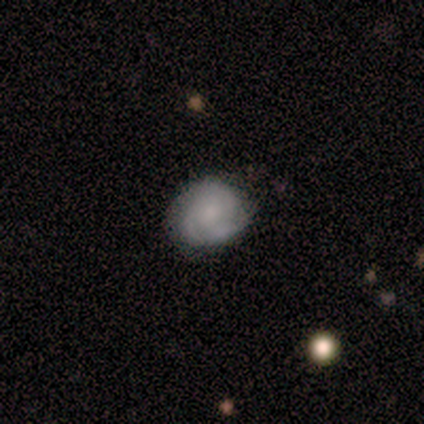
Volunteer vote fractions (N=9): This appears to be a featured or disk galaxy (67%) with no bar (83%), 2 (67%) medium (67%) spiral arms (100%) and a small central bulge (67%). Merging: none (88%).